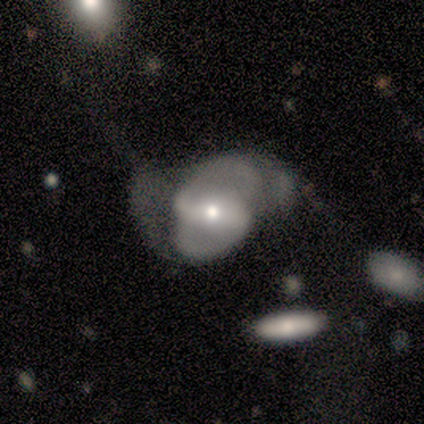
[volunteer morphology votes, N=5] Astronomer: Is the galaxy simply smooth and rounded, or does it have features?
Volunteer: featured or disk — 100%.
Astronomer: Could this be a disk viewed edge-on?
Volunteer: no — 100%.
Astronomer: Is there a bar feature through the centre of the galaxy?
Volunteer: strong — 40%, tied with weak at 40%.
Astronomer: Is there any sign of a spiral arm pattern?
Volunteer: yes — 100%.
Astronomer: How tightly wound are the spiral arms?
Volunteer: medium — 40%, tied with loose at 40%.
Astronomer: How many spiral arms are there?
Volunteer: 2 — 80%.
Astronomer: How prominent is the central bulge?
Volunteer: small — 60% (runner-up: moderate, 40%).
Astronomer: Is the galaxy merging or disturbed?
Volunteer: none — 40%, tied with major disturbance at 40%.